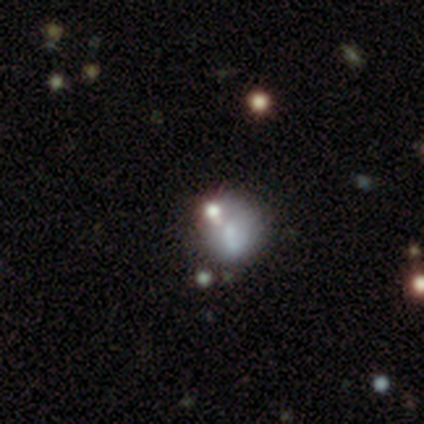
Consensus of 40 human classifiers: Morphology: type=smooth (57%); roundness=round (78%); merging=merger (41%).